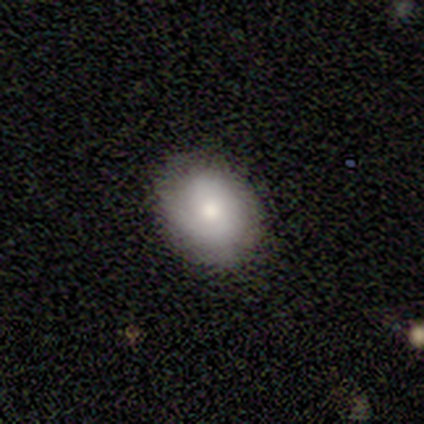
This is likely a featured or disk galaxy (71%). It is clearly not viewed edge-on (100%). Bar: clearly no (80%). Spiral arm pattern: likely yes (60%). Spiral arm count: clearly 2 (100%). Spiral winding: likely tight (67%). Central bulge: likely moderate (60%). Merging: likely none (71%).